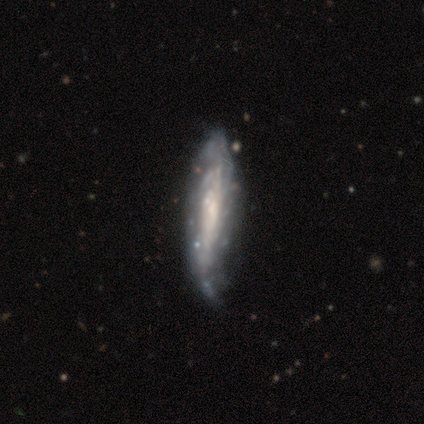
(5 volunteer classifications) smooth-or-featured: featured or disk: 100% | smooth: 0% | star or artifact: 0%
  disk-edge-on: no: 60% | yes: 40%
    bar: no: 100% | strong: 0% | weak: 0%
    has-spiral-arms: yes: 100% | no: 0%
      spiral-winding: tight: 100% | medium: 0% | loose: 0%
      spiral-arm-count: can't tell: 67% | more than 4: 33% | 1: 0% | 2: 0% | 3: 0% | 4: 0%
    bulge-size: none: 67% | moderate: 33% | dominant: 0% | large: 0% | small: 0%
  merging: none: 60% | minor disturbance: 40% | major disturbance: 0% | merger: 0%